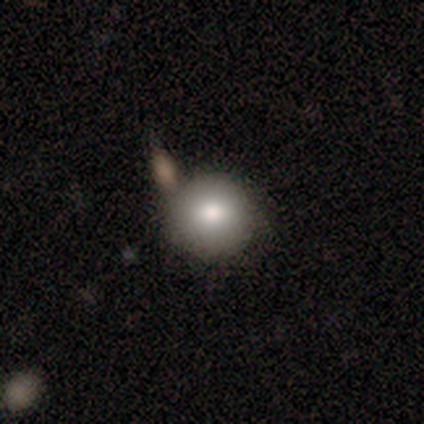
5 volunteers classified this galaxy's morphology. A smooth galaxy with no disk features (60%) that is round (100%).

Vote fractions:
- Smooth or featured? smooth: 60% / featured or disk: 20% / star or artifact: 20%
- How rounded? round: 100% / in between: 0% / cigar-shaped: 0%
- Merging? none: 50% / minor disturbance: 25% / major disturbance: 25% / merger: 0%